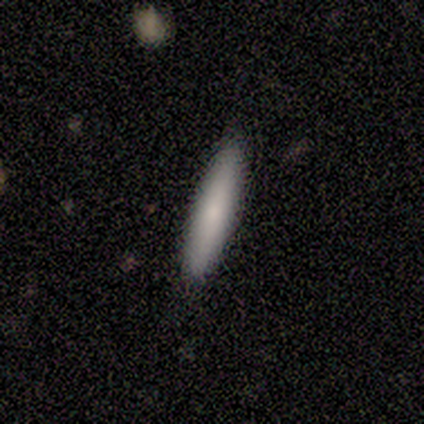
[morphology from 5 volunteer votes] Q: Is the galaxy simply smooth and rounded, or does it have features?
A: smooth — 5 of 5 (100%).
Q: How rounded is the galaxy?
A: cigar-shaped — 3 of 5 (60%).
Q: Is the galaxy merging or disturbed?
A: none — 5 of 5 (100%).